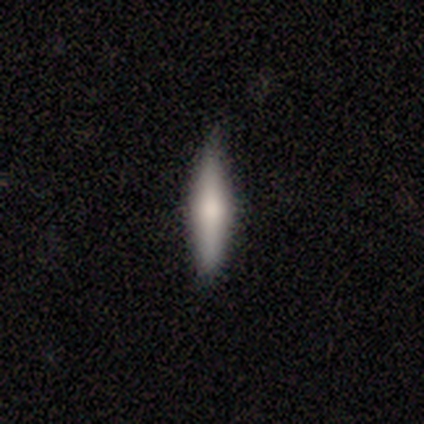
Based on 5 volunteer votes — This is likely a smooth galaxy (60%). How rounded: clearly cigar-shaped (100%). Merging: clearly none (100%).